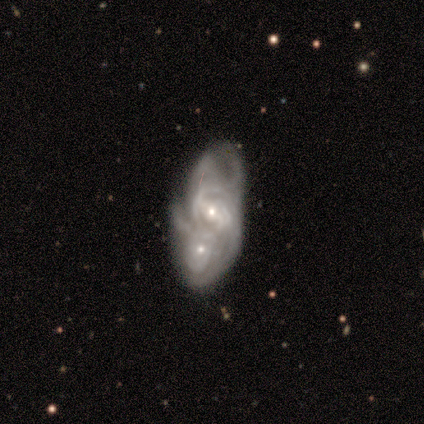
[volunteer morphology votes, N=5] featured or disk 60%, star or artifact 40%, smooth 0%. Down the decision tree: edge-on disk — no (100%); bar — strong (33%, tied with weak and no); spiral arms — yes (67%); spiral arm count — 3 (50%, tied with can't tell); spiral winding — medium (50%, tied with loose); bulge size — small (67%); merging — merger (67%).